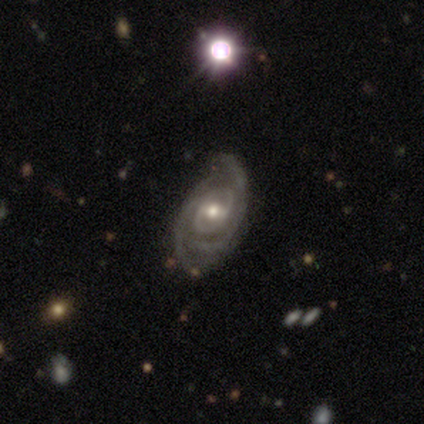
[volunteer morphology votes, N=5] Overall: featured or disk (100%). Edge-on disk: no (100%). Bar: no (80%). Spiral arms: yes (80%). Spiral arm count: 2 (100%). Spiral winding: tight (75%). Bulge size: moderate (80%). Merging: none (60%; minor disturbance 40%).